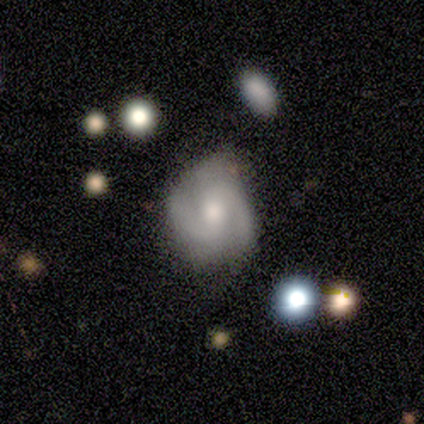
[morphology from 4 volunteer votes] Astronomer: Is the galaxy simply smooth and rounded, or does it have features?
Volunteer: featured or disk — 50%.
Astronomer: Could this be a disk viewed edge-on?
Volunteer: no — 100%.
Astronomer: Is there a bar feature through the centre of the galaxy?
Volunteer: weak — 50%, tied with no at 50%.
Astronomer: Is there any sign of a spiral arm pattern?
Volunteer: yes — 100%.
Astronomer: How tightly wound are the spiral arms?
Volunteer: tight — 50%, tied with medium at 50%.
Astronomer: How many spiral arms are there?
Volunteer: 2 — 100%.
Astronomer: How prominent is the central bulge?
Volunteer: moderate — 100%.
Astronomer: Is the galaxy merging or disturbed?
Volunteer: none — 67%.